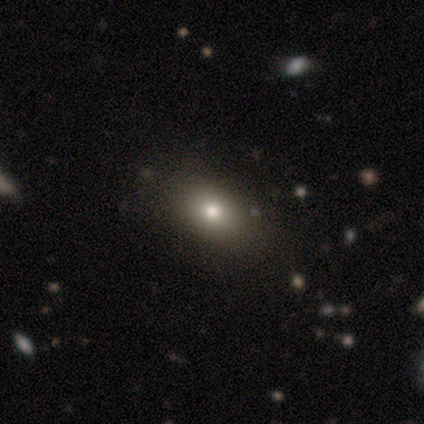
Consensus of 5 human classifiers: smooth-or-featured: smooth: 100% | featured or disk: 0% | star or artifact: 0%
  how-rounded: in between: 100% | round: 0% | cigar-shaped: 0%
  merging: none: 80% | major disturbance: 20% | minor disturbance: 0% | merger: 0%